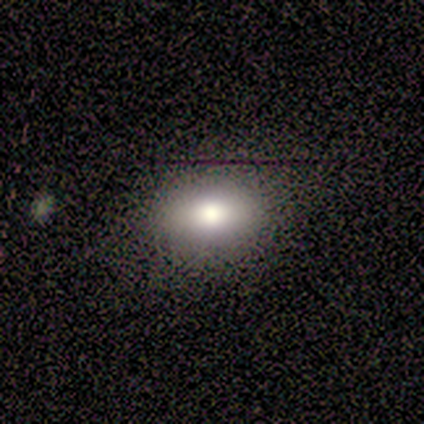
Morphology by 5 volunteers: Q: Smooth or featured?
A: smooth (40%); tied with: star or artifact (40%)
Q: How rounded?
A: in between (100%)
Q: Merging?
A: none (100%)